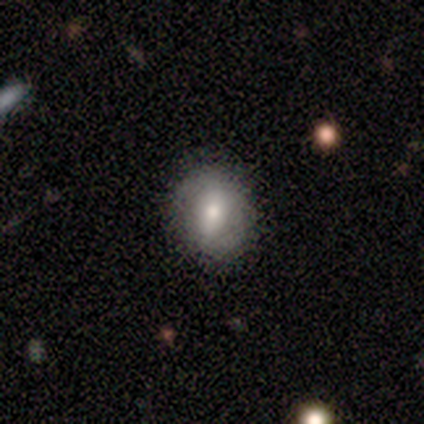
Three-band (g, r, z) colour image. It shows a smooth galaxy with no disk features (60%) that is in between round and cigar-shaped (100%). Merging: none (100%).